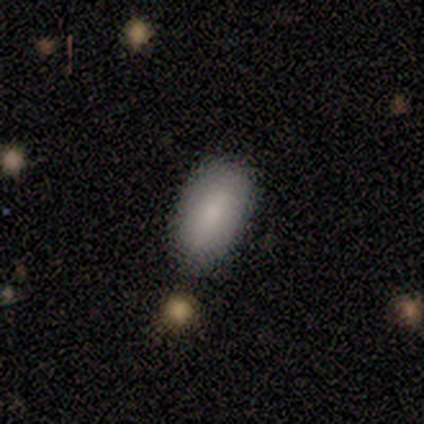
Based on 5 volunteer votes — A smooth galaxy with no disk features (80%) that is in between round and cigar-shaped (100%).

Vote fractions:
- Smooth or featured? smooth: 80% / featured or disk: 20% / star or artifact: 0%
- How rounded? in between: 100% / round: 0% / cigar-shaped: 0%
- Merging? none: 100% / minor disturbance: 0% / major disturbance: 0% / merger: 0%